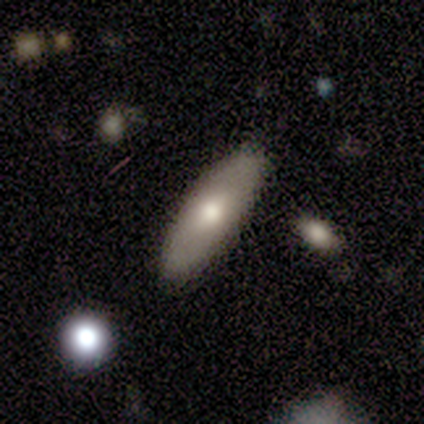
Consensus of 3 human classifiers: This is clearly a smooth galaxy (100%). How rounded: likely in between (67%). Merging: likely none (67%).